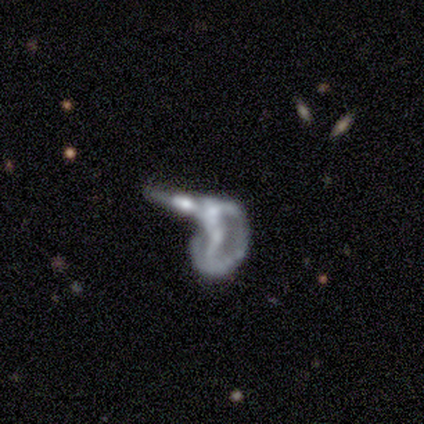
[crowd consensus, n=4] This appears to be a smooth galaxy with no disk features (50%) that is in between round and cigar-shaped (50%, tied with cigar-shaped). Merging: merger (100%).